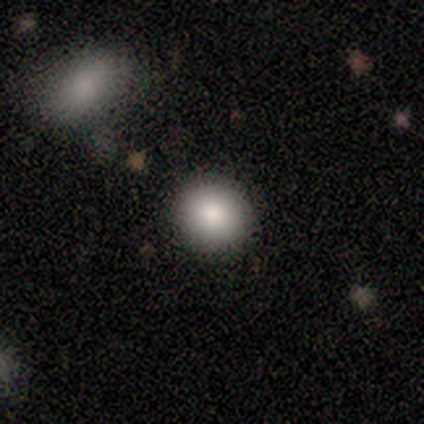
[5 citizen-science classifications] A smooth galaxy with no disk features (80%) that is round (100%).

Vote fractions:
- Smooth or featured? smooth: 80% / star or artifact: 20% / featured or disk: 0%
- How rounded? round: 100% / in between: 0% / cigar-shaped: 0%
- Merging? none: 100% / minor disturbance: 0% / major disturbance: 0% / merger: 0%